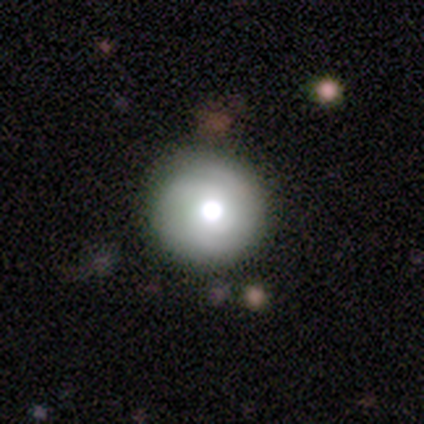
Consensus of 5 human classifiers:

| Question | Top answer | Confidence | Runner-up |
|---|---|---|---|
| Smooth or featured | smooth | 80% | featured or disk (20%) |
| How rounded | round | 100% | — |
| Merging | none | 100% | — |